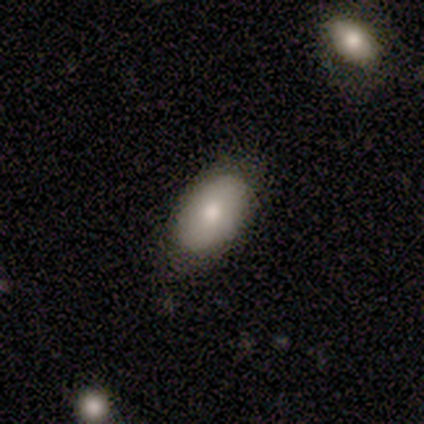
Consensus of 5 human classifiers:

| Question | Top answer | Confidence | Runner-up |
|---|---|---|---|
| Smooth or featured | smooth | 60% | featured or disk (20%) |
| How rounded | in between | 100% | — |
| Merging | none | 100% | — |